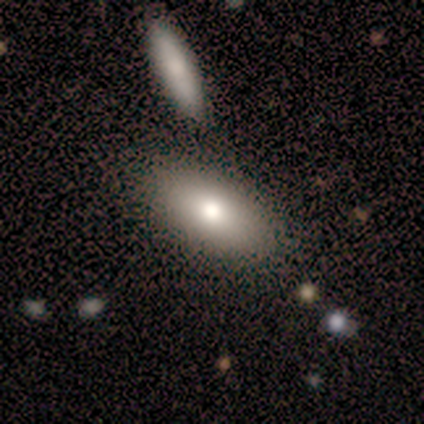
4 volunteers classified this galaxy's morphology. Smooth or featured: smooth — 75% (featured or disk — 25%)
How rounded: in between — 67% (cigar-shaped — 33%)
Merging: none — 50% (tied with merger — 50%)